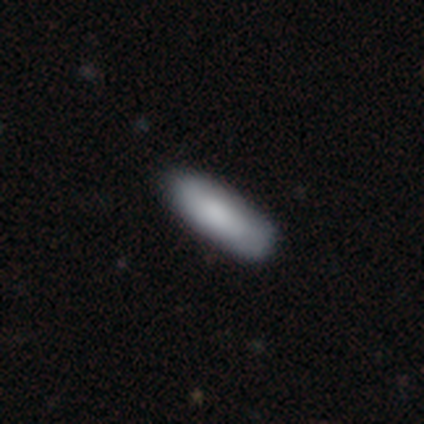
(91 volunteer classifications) This is clearly a smooth galaxy (88%). How rounded: possibly cigar-shaped (59%). Merging: likely none (79%).